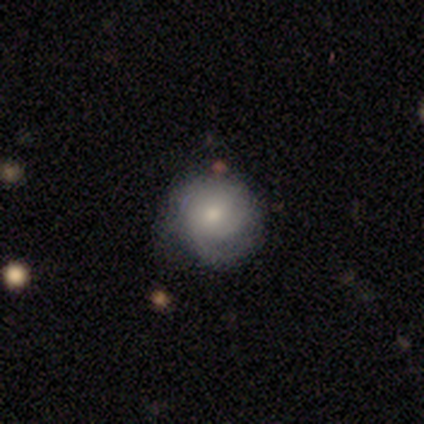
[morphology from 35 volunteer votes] Volunteers were most divided on "merging": none: 56%, minor disturbance: 41%, major disturbance: 3%, merger: 0%. More confident: how rounded — round (95%); smooth or featured — smooth (54%).